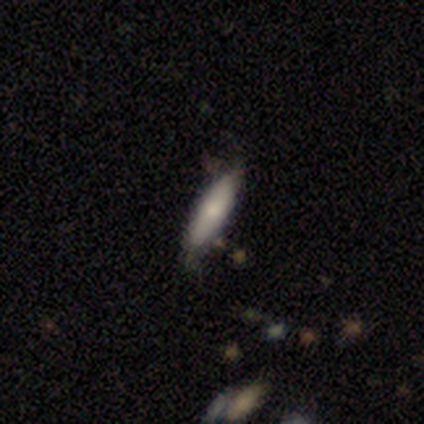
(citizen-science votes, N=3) Smooth or featured? smooth (67%)
How rounded? cigar-shaped (100%)
Merging? minor disturbance (100%)